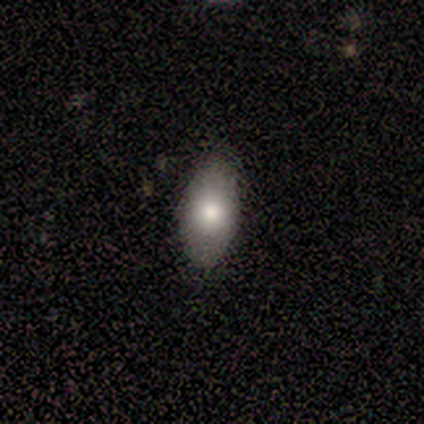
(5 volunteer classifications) Smooth or featured: smooth — 100%
How rounded: in between — 100%
Merging: none — 80% (merger — 20%)